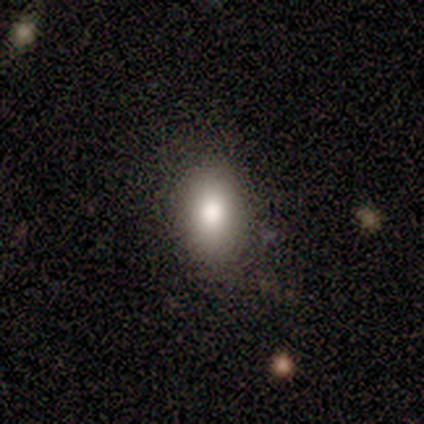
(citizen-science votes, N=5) Overall: smooth (80%). How rounded: in between (100%). Merging: none (100%).